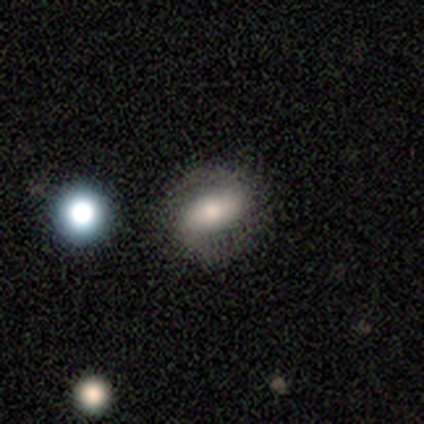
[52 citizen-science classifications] Overall: featured or disk (56%; smooth 40%). Edge-on disk: no (97%). Bar: no (54%; weak 29%). Spiral arms: yes (82%). Spiral arm count: 2 (87%). Spiral winding: medium (43%; tight 35%). Bulge size: moderate (50%; large 21%). Merging: none (72%).